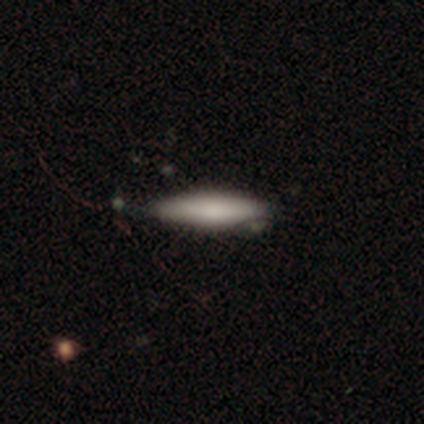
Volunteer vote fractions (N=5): Morphology: type=smooth (100%); roundness=cigar-shaped (100%); merging=none (80%).